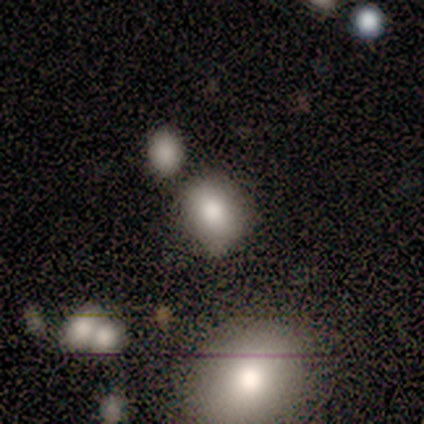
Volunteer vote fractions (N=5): smooth_or_featured: smooth (p=0.80) [alt: star or artifact p=0.20]
how_rounded: round (p=0.50) [tied with: in between p=0.50]
merging: merger (p=0.50) [alt: none p=0.25]